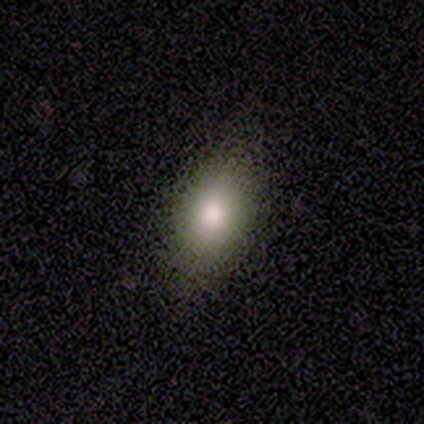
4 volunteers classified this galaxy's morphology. A smooth galaxy with no disk features (75%) that is in between round and cigar-shaped (67%). Merging: none (100%).